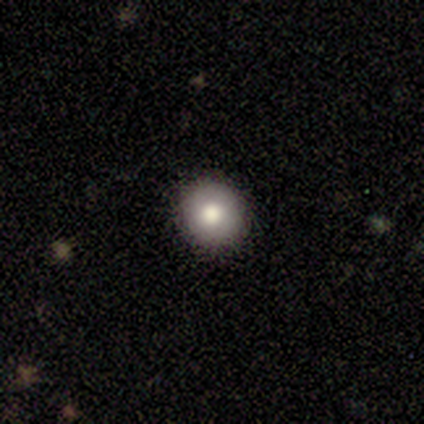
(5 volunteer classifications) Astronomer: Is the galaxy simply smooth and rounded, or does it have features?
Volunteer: smooth — 100%.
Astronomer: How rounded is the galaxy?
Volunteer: round — 100%.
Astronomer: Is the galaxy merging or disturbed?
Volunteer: none — 100%.